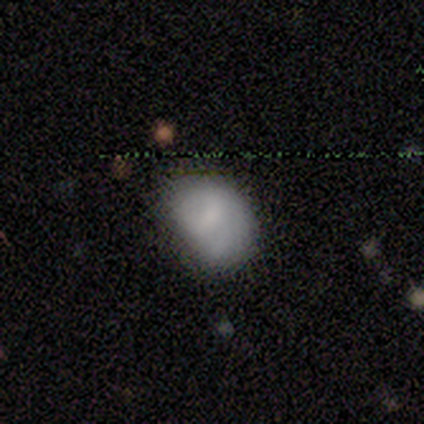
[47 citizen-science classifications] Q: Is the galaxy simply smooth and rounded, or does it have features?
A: smooth — 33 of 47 (70%).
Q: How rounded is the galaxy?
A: in between — 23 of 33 (70%).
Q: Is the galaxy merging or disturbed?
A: minor disturbance — 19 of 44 (43%).